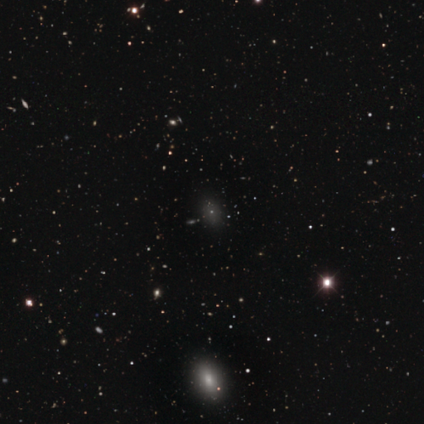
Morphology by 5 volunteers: Smooth or featured? 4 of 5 (80%) said star or artifact.